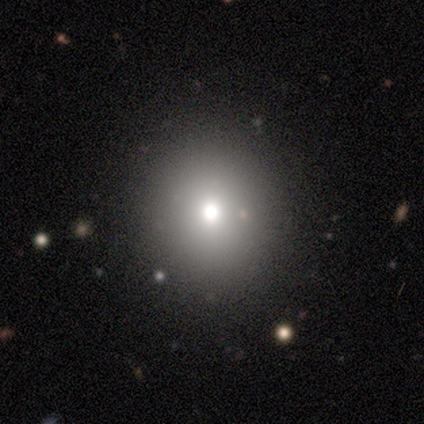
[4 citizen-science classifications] Volunteers were most divided on "how rounded": round: 75%, in between: 25%, cigar-shaped: 0%. More confident: smooth or featured — smooth (100%); merging — none (75%).